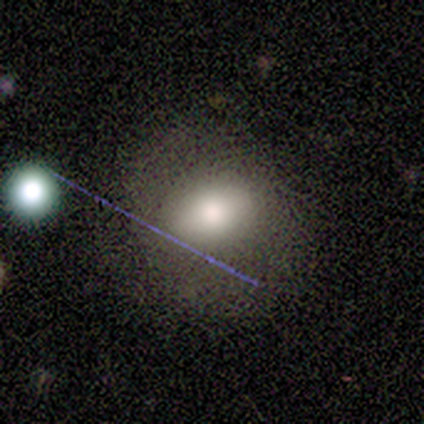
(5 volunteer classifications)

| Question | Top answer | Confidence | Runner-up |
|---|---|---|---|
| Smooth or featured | smooth | 40% | tied: featured or disk (40%) |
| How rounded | round | 50% | tied: in between (50%) |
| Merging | none | 75% | merger (25%) |